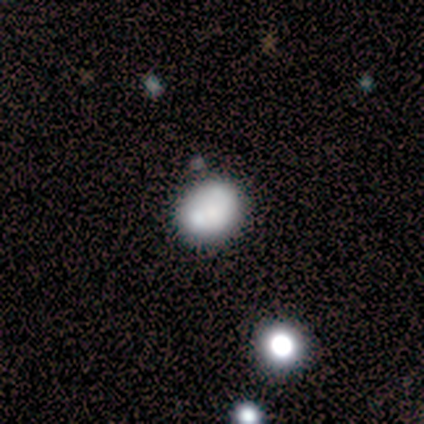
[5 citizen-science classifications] Volunteers were most divided on "smooth or featured": smooth: 60%, featured or disk: 40%, star or artifact: 0%. More confident: how rounded — round (67%); merging — none (60%).